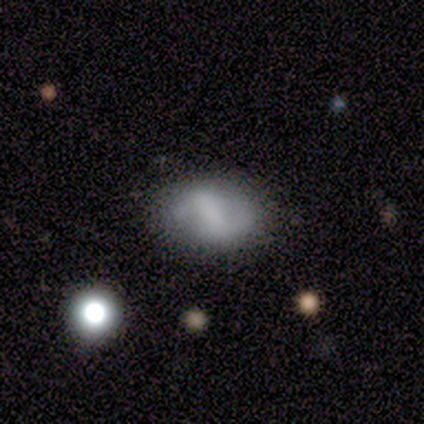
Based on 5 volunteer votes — smooth-or-featured: featured or disk: 60% | smooth: 40% | star or artifact: 0%
  disk-edge-on: no: 100% | yes: 0%
    bar: weak: 67% | strong: 33% | no: 0%
    has-spiral-arms: yes: 67% | no: 33%
      spiral-winding: medium: 50% (tied) | loose: 50% (tied) | tight: 0%
      spiral-arm-count: 2: 50% (tied) | can't tell: 50% (tied) | 1: 0% | 3: 0% | 4: 0% | more than 4: 0%
    bulge-size: moderate: 33% (tied) | small: 33% (tied) | none: 33% (tied) | dominant: 0% | large: 0%
  merging: none: 100% | minor disturbance: 0% | major disturbance: 0% | merger: 0%